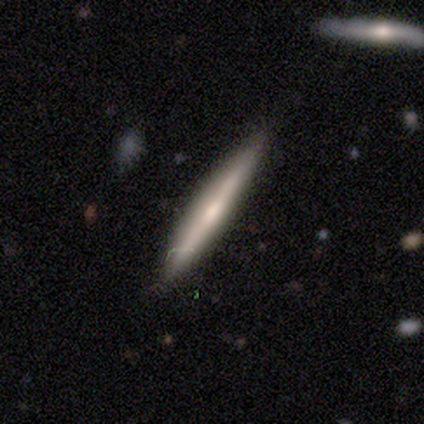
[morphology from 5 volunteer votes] Smooth or featured? 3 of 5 (60%) said smooth. How rounded? 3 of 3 (100%) said cigar-shaped. Merging? 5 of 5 (100%) said none.